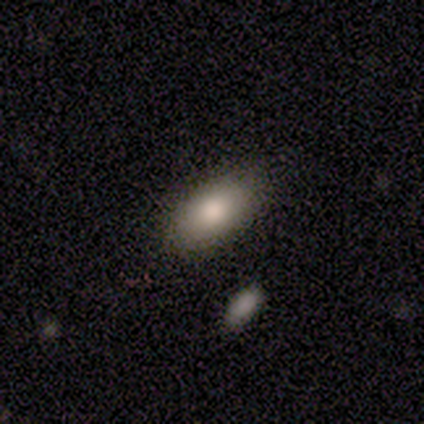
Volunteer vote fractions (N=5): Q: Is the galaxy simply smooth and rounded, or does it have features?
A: smooth — 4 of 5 (80%).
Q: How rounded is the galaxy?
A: in between — 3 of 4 (75%).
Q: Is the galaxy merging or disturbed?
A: none — 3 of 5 (60%).